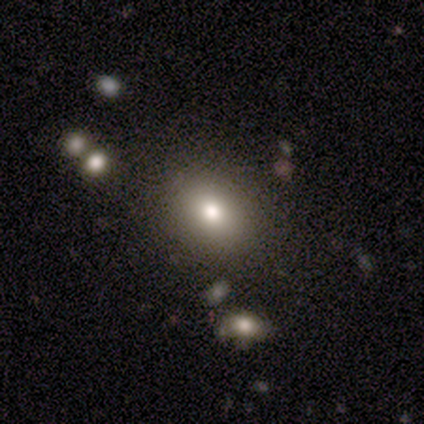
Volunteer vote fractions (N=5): This is clearly a smooth galaxy (80%). How rounded: possibly round (50%, tied with in between). Merging: clearly none (100%).